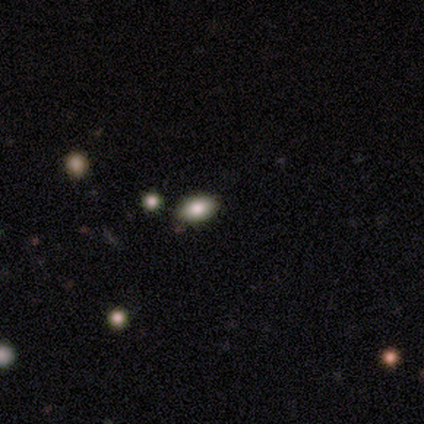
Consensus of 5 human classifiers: Q: Smooth or featured?
A: smooth (100%)
Q: How rounded?
A: in between (80%); runner-up: round (20%)
Q: Merging?
A: none (100%)